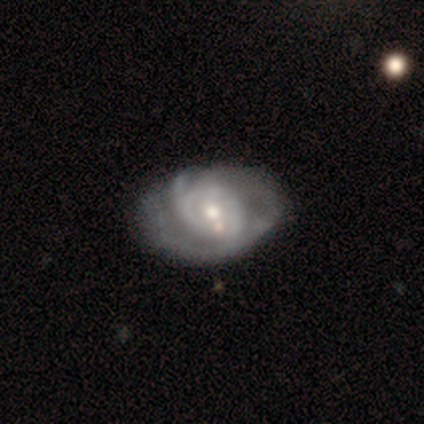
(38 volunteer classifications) A featured or disk galaxy (87%) with no bar (67%), tight (56%) spiral arms (90%) and a moderate central bulge (47%, tied with small). Merging: none (51%).